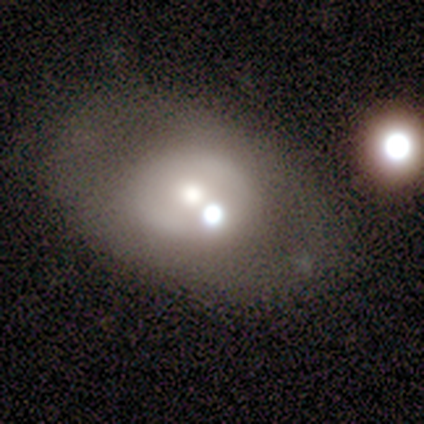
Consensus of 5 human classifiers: featured or disk 60%, smooth 40%, star or artifact 0%. Down the decision tree: edge-on disk — no (100%); bar — no (100%); spiral arms — no (100%); bulge size — small (67%); merging — merger (60%).